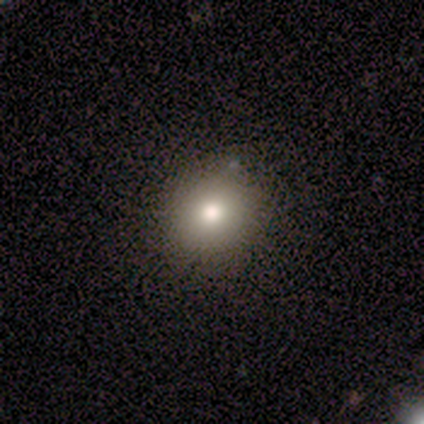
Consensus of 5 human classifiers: This is clearly a smooth galaxy (80%). How rounded: likely round (75%). Merging: clearly none (100%).